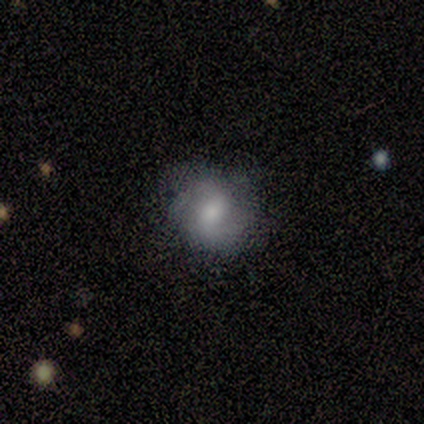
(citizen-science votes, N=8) Q: Smooth or featured?
A: smooth (75%); runner-up: featured or disk (25%)
Q: How rounded?
A: round (50%); tied with: in between (50%)
Q: Merging?
A: none (62%); runner-up: major disturbance (25%)